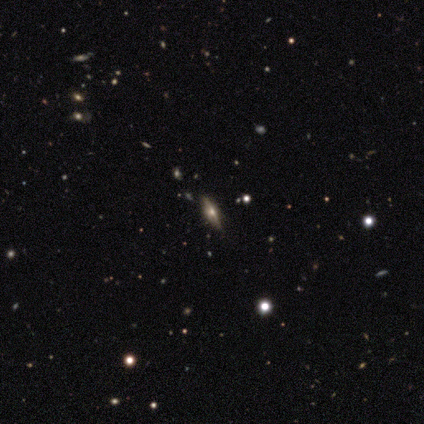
A featured or disk galaxy (62%) viewed edge-on (91%) with a rounded central bulge (90%). Merging: none (88%).